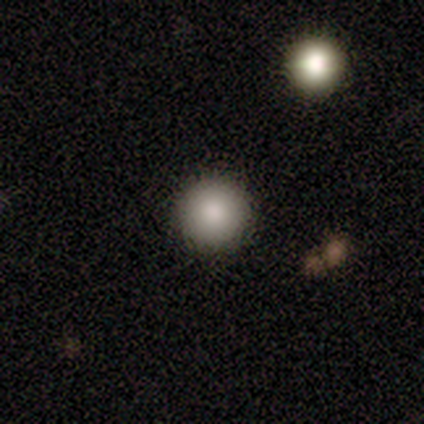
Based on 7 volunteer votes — A smooth galaxy with no disk features (57%) that is round (100%). Merging: none (100%).